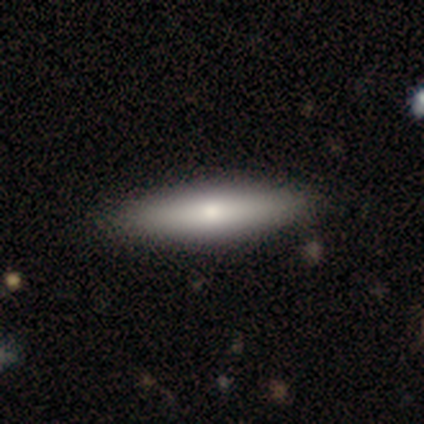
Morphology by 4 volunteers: A smooth galaxy with no disk features (100%) that is cigar-shaped (75%).

Vote fractions:
- Smooth or featured? smooth: 100% / featured or disk: 0% / star or artifact: 0%
- How rounded? cigar-shaped: 75% / in between: 25% / round: 0%
- Merging? none: 100% / minor disturbance: 0% / major disturbance: 0% / merger: 0%